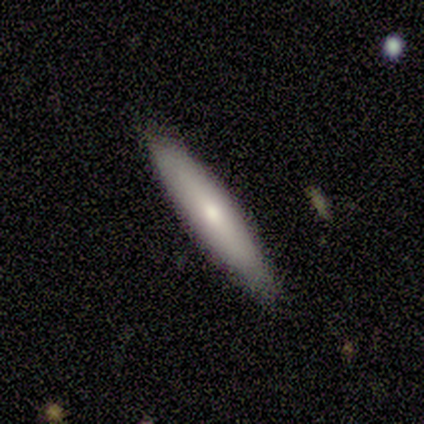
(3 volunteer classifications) smooth-or-featured: featured or disk: 67% | smooth: 33% | star or artifact: 0%
  disk-edge-on: yes: 100% | no: 0%
    edge-on-bulge: none: 100% | boxy: 0% | rounded: 0%
  merging: none: 67% | minor disturbance: 33% | major disturbance: 0% | merger: 0%